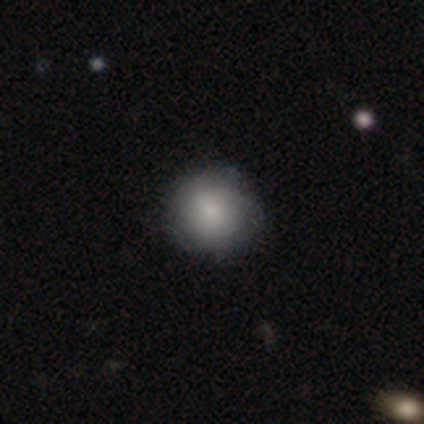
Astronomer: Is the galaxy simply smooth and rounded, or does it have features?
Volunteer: smooth — 74%.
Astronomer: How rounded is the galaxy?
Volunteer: round — 79%.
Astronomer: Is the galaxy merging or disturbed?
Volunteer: none — 83%.